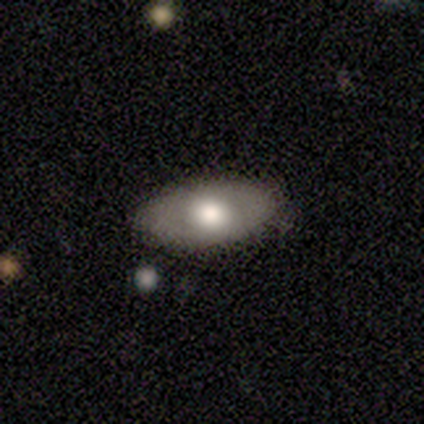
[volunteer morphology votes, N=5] featured or disk 80%, smooth 20%, star or artifact 0%. Down the decision tree: edge-on disk — yes (50%, tied with no); edge-on bulge — rounded (100%); merging — none (100%).